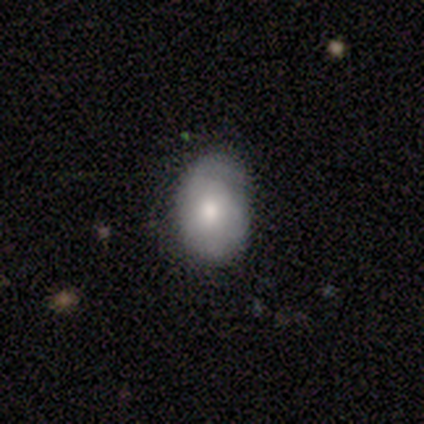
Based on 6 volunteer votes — Smooth or featured? smooth (83%)
How rounded? in between (60%)
Merging? none (67%)